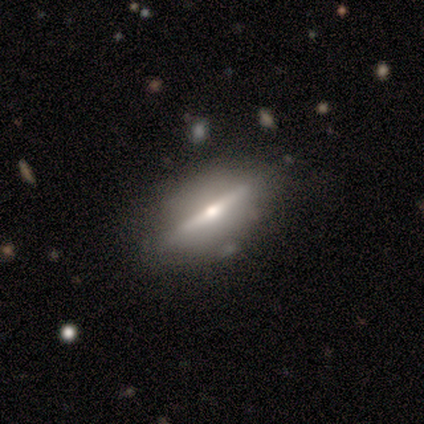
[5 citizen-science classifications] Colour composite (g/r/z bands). It shows a featured or disk galaxy (100%) viewed edge-on (100%) with a rounded central bulge (100%). Merging: none (100%).